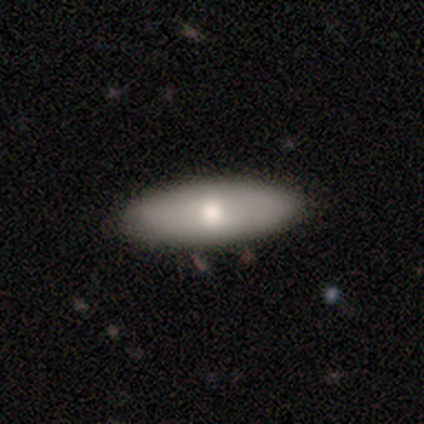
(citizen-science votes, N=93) A smooth galaxy with no disk features (72%) that is in between round and cigar-shaped (70%).

Vote fractions:
- Smooth or featured? smooth: 72% / featured or disk: 25% / star or artifact: 3%
- How rounded? in between: 70% / cigar-shaped: 27% / round: 3%
- Merging? none: 91% / minor disturbance: 7% / major disturbance: 2% / merger: 0%